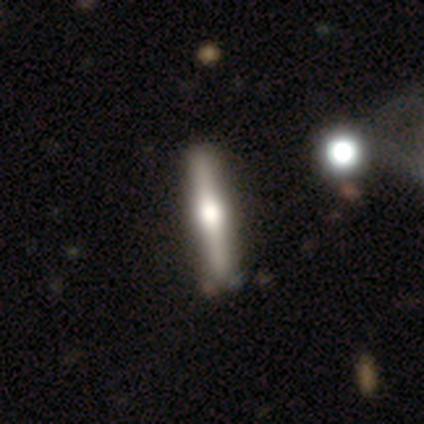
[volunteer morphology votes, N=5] Overall: smooth (60%; featured or disk 40%). How rounded: cigar-shaped (100%). Merging: none (80%).